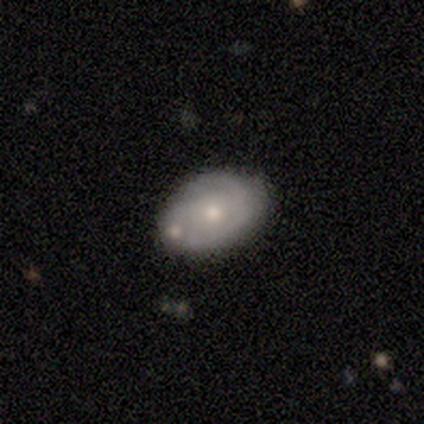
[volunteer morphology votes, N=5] Smooth or featured? smooth (80%)
How rounded? in between (75%)
Merging? none (75%)